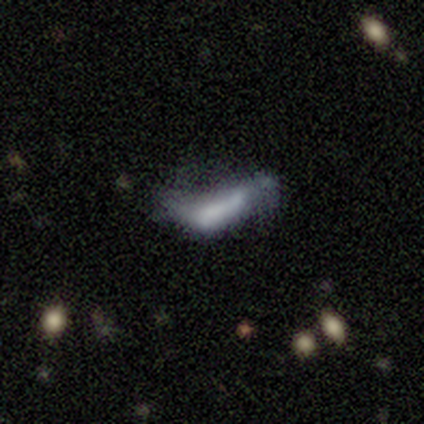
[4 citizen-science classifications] Smooth or featured? smooth (50%, tied with star or artifact)
How rounded? in between (100%)
Merging? major disturbance (100%)